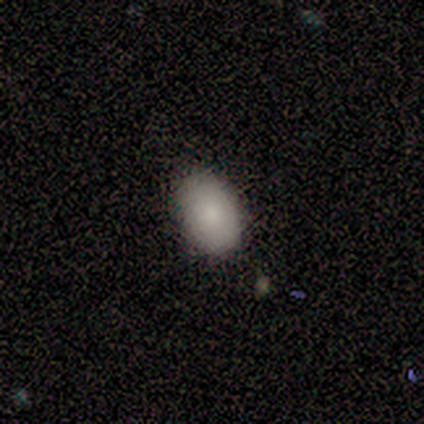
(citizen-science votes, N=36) Smooth or featured? smooth (86%)
How rounded? in between (94%)
Merging? none (94%)